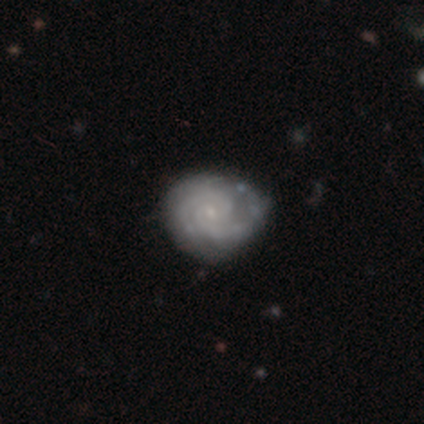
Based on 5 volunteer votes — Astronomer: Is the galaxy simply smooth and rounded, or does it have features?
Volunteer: featured or disk — 100%.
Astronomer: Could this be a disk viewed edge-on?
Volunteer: no — 100%.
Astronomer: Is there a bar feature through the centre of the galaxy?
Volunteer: no — 80%.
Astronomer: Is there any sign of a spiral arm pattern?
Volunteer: yes — 80%.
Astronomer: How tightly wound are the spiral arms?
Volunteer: tight — 100%.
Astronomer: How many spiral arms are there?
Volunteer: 2 — 75%.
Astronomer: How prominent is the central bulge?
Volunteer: small — 100%.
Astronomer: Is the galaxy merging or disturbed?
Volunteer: none — 60% (runner-up: minor disturbance, 40%).